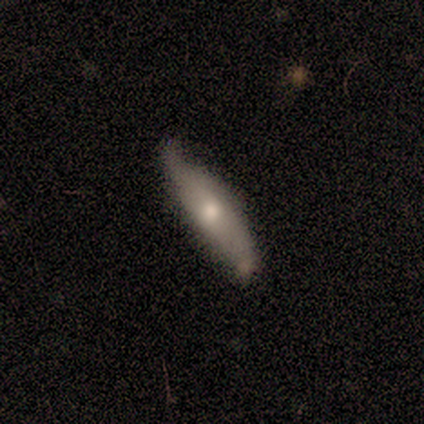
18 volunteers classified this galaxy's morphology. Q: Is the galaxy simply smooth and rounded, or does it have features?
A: featured or disk — 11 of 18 (61%).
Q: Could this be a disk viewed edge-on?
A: yes — 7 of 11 (64%).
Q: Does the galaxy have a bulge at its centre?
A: rounded — 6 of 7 (86%).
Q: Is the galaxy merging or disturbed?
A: none — 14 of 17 (82%).